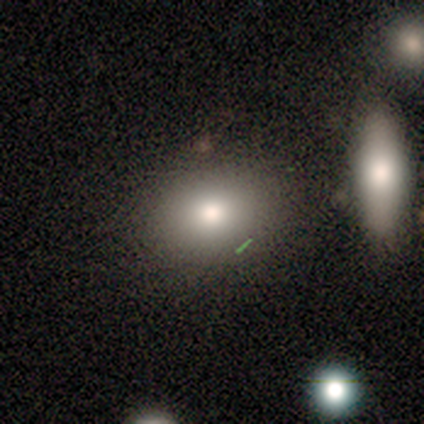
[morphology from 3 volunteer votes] Consensus on every question: smooth or featured — smooth (100%); how rounded — round (100%); merging — none (100%).